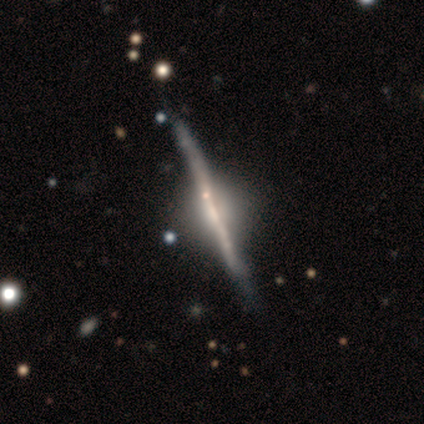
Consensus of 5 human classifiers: Q: Smooth or featured?
A: featured or disk (100%)
Q: Edge-on disk?
A: yes (100%)
Q: Edge-on bulge?
A: rounded (60%); runner-up: none (40%)
Q: Merging?
A: none (60%); runner-up: minor disturbance (40%)